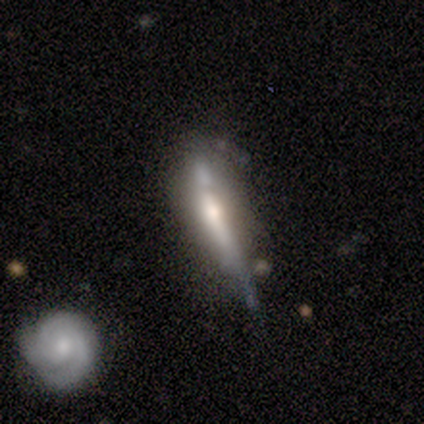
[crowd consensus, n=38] This is likely a featured or disk galaxy (66%). It is likely viewed edge-on (76%). Edge-on bulge: marginally none (42%, tied with rounded). Merging: marginally none (43%).